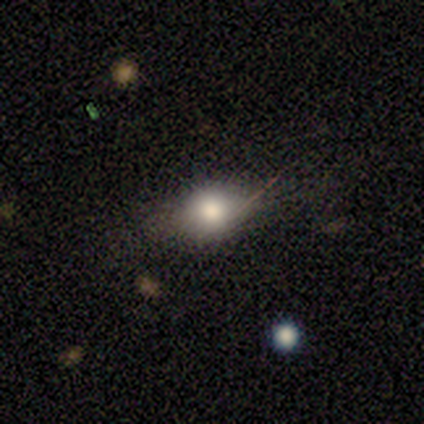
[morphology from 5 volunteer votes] Smooth or featured? 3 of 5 (60%) said smooth. How rounded? 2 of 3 (67%) said round. Merging? 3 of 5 (60%) said none.